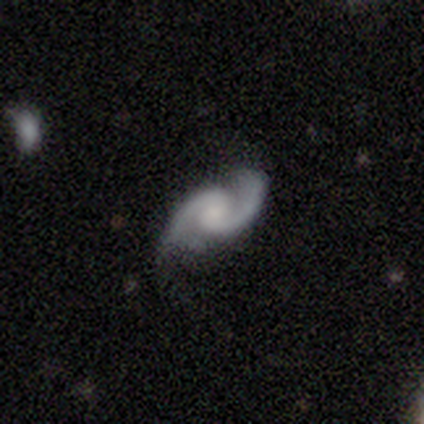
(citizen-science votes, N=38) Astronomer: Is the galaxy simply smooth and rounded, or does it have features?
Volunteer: featured or disk — 95%.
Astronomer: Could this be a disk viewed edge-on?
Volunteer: no — 97%.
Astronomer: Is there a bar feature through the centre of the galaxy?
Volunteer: no — 49% (runner-up: weak, 46%).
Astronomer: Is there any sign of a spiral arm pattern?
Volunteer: yes — 97%.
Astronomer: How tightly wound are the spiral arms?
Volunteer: medium — 62%.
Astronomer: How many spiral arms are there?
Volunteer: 2 — 100%.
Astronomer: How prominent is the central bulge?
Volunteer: moderate — 37%, tied with small at 37%.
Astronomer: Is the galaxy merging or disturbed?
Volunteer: none — 71%.